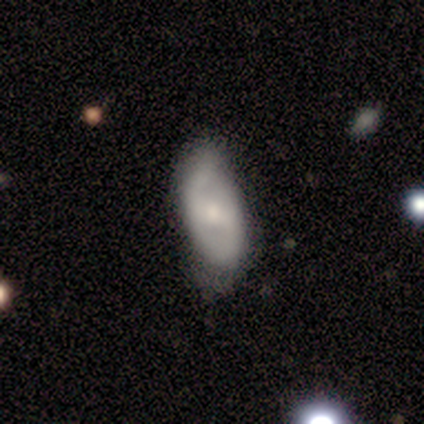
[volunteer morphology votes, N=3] smooth-or-featured: featured or disk: 67% | smooth: 33% | star or artifact: 0%
  disk-edge-on: no: 100% | yes: 0%
    bar: no: 100% | strong: 0% | weak: 0%
    has-spiral-arms: yes: 100% | no: 0%
      spiral-winding: tight: 50% (tied) | medium: 50% (tied) | loose: 0%
      spiral-arm-count: 1: 50% (tied) | 2: 50% (tied) | 3: 0% | 4: 0% | more than 4: 0% | can't tell: 0%
    bulge-size: large: 50% (tied) | moderate: 50% (tied) | dominant: 0% | small: 0% | none: 0%
  merging: none: 67% | merger: 33% | minor disturbance: 0% | major disturbance: 0%